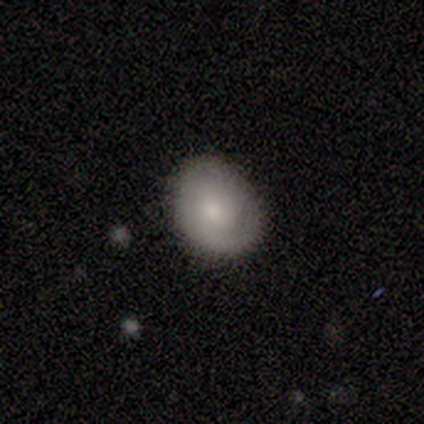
Overall: smooth (40%, tied with featured or disk). How rounded: round (100%). Merging: none (75%).